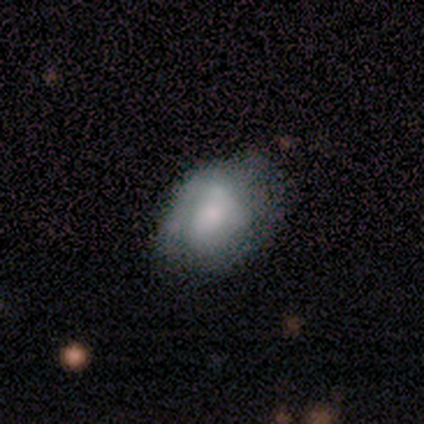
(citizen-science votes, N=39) Morphology: type=smooth (56%); roundness=in between (77%); merging=none (42%).